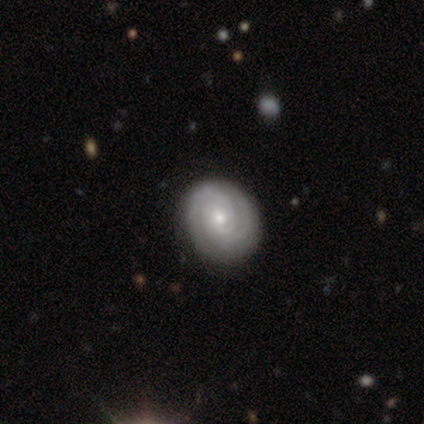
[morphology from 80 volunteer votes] type=featured or disk (85%); edge-on=no (99%); bar=no (79%); spiral arms=yes (96%); winding=tight (80%); arm count=2 (47%); bulge=small (57%); merging=none (45%).